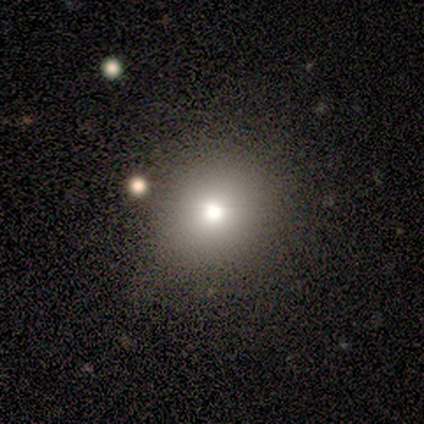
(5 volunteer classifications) smooth_or_featured: smooth (p=0.40) [tied with: featured or disk p=0.40]
how_rounded: round (p=0.50) [tied with: in between p=0.50]
merging: none (p=0.75) [alt: minor disturbance p=0.25]